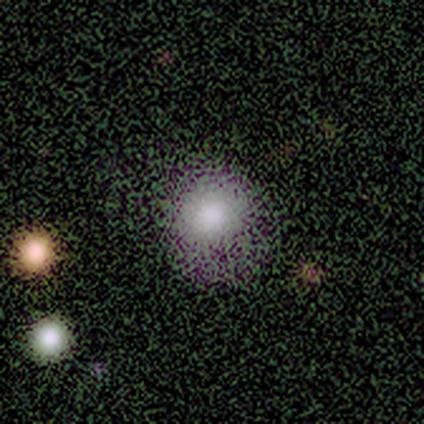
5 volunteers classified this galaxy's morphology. type=smooth (80%); roundness=round (100%); merging=none (40%, tied with minor disturbance).